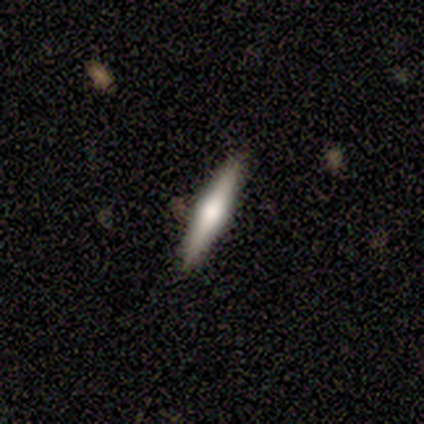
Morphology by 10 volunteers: Smooth or featured? 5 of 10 (50%) said smooth. How rounded? 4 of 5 (80%) said cigar-shaped. Merging? 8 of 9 (89%) said none.